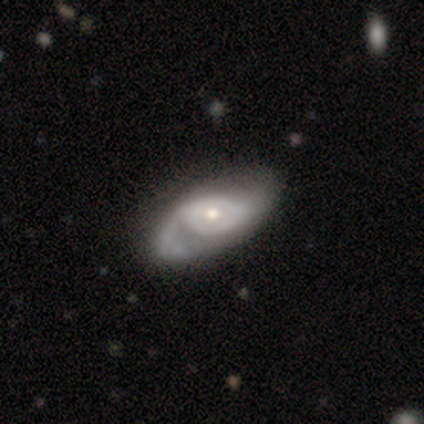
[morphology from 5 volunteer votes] A featured or disk galaxy (60%) with no bar (100%), no spiral arms (67%) and a large central bulge (33%, tied with moderate and small). Merging: major disturbance (75%).